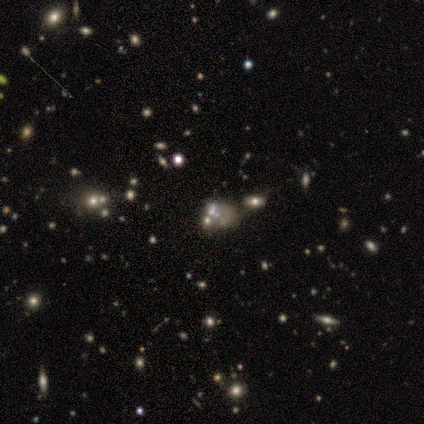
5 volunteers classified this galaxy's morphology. Volunteers were most divided on "smooth or featured": star or artifact: 60%, featured or disk: 40%, smooth: 0%.